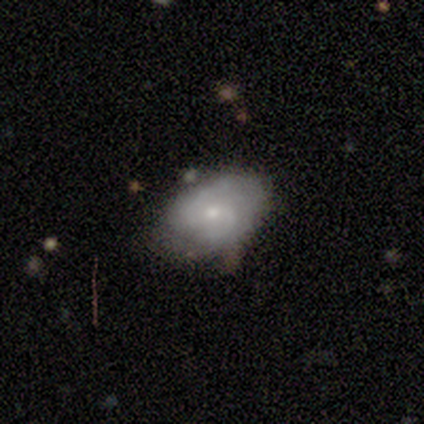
Volunteers were most divided on "bar": weak: 60%, no: 40%, strong: 0%. More confident: smooth or featured — featured or disk (100%); edge-on disk — no (100%); spiral arms — yes (100%); spiral arm count — 2 (100%); bulge size — small (100%); merging — none (80%); spiral winding — loose (60%).